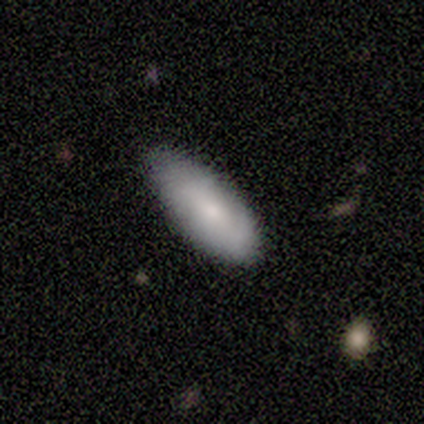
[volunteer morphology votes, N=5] smooth_or_featured: smooth (p=0.80) [alt: featured or disk p=0.20]
how_rounded: in between (p=1.00)
merging: none (p=0.80) [alt: minor disturbance p=0.20]